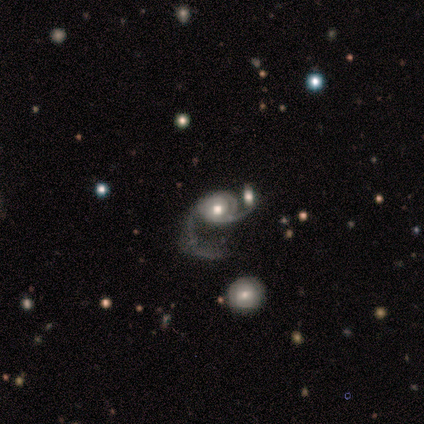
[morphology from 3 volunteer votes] Smooth or featured? 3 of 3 (100%) said featured or disk. Edge-on disk? 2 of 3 (67%) said no. Bar? 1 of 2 (50%, tied with no) said weak. Spiral arms? 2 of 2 (100%) said yes. Spiral winding? 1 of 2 (50%, tied with loose) said medium. Spiral arm count? 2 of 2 (100%) said 2. Bulge size? 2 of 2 (100%) said moderate. Merging? 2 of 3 (67%) said major disturbance.